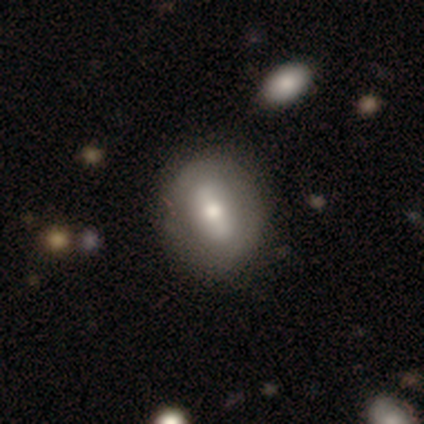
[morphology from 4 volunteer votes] Q: Smooth or featured?
A: smooth (100%)
Q: How rounded?
A: round (50%); tied with: in between (50%)
Q: Merging?
A: none (100%)